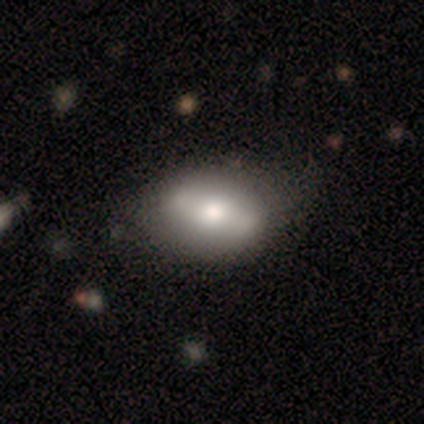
smooth 54%, featured or disk 46%, star or artifact 0%. Down the decision tree: how rounded — in between (86%); merging — none (41%).